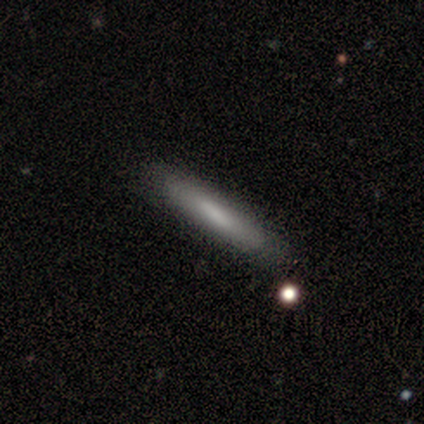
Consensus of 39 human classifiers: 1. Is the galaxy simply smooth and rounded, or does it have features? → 74% smooth, 23% featured or disk, 3% star or artifact.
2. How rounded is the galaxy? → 97% cigar-shaped, 3% in between, 0% round.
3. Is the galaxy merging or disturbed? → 58% none, 5% merger, 3% major disturbance, 0% minor disturbance.